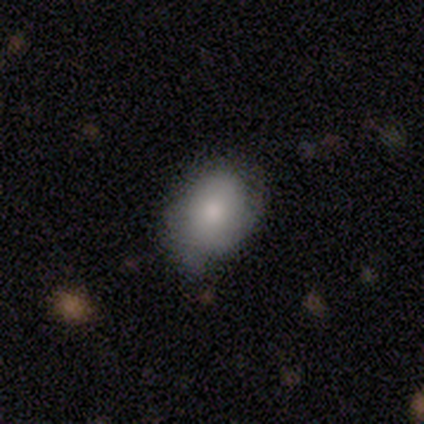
A smooth galaxy with no disk features (75%) that is in between round and cigar-shaped (100%).

Vote fractions:
- Smooth or featured? smooth: 75% / featured or disk: 25% / star or artifact: 0%
- How rounded? in between: 100% / round: 0% / cigar-shaped: 0%
- Merging? minor disturbance: 75% / none: 25% / major disturbance: 0% / merger: 0%